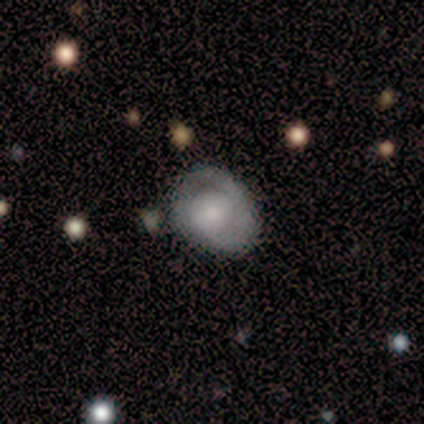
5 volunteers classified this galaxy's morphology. Smooth or featured? smooth (80%)
How rounded? in between (75%)
Merging? minor disturbance (60%)